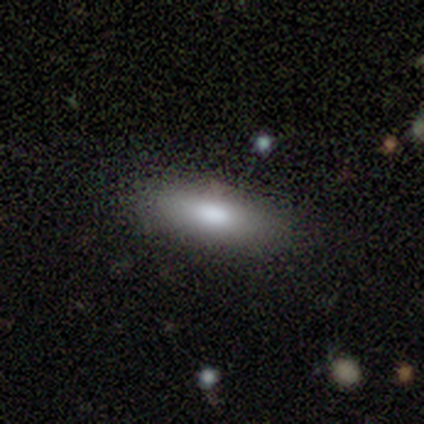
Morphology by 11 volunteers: This is clearly a smooth galaxy (82%). How rounded: likely in between (67%). Merging: clearly none (89%).